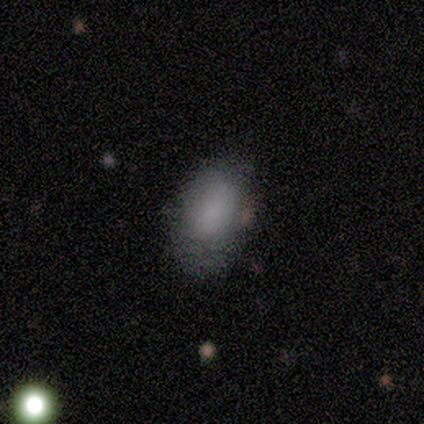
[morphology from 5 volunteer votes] This appears to be a smooth galaxy with no disk features (80%) that is in between round and cigar-shaped (100%). Merging: none (80%).